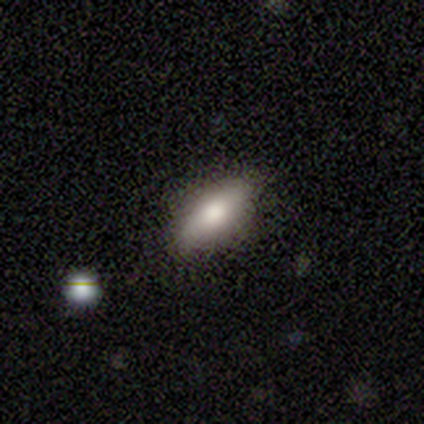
Overall: smooth (80%). How rounded: in between (75%). Merging: none (75%).